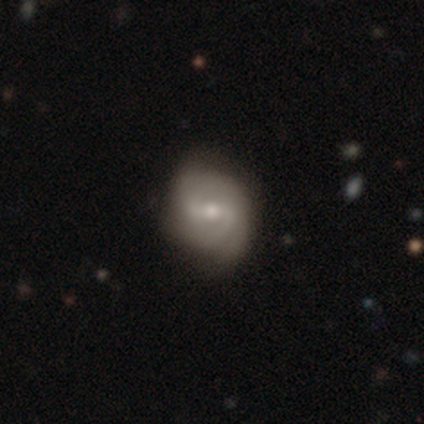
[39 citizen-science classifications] This is likely a featured or disk galaxy (74%). It is clearly not viewed edge-on (100%). Bar: marginally weak (45%). Spiral arm pattern: likely yes (79%). Spiral arm count: likely 2 (74%). Spiral winding: possibly medium (48%). Central bulge: possibly moderate (59%). Merging: likely none (65%).